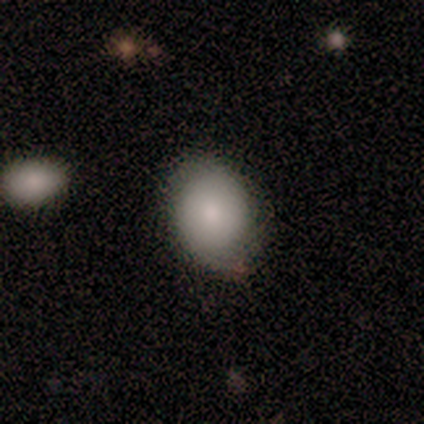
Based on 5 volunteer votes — Overall: smooth (80%). How rounded: round (75%). Merging: none (100%).